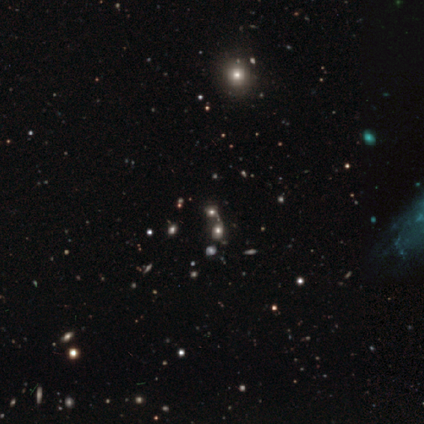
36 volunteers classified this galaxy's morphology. Q: Smooth or featured?
A: star or artifact (47%); runner-up: smooth (31%)